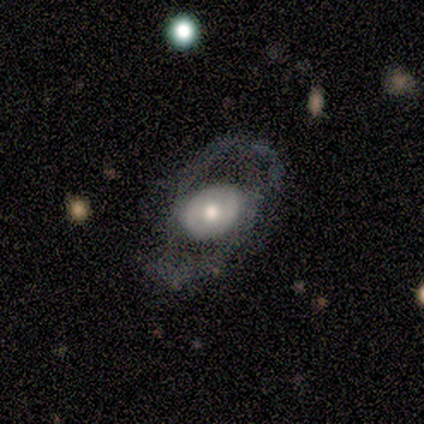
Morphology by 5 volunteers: smooth-or-featured: smooth: 60% | featured or disk: 40% | star or artifact: 0%
  how-rounded: in between: 100% | round: 0% | cigar-shaped: 0%
  merging: none: 60% | major disturbance: 40% | minor disturbance: 0% | merger: 0%